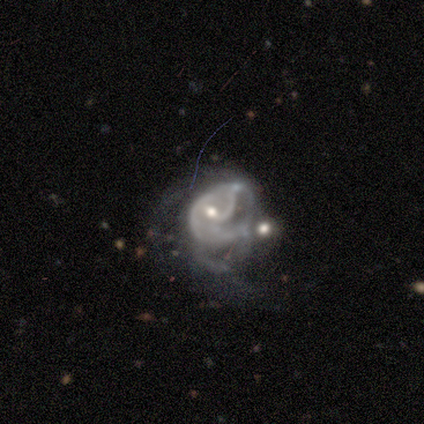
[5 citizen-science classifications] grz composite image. It shows a featured or disk galaxy (100%) with no bar (80%), tight (33%, tied with medium and loose) spiral arms (60%) and a moderate central bulge (60%). Merging: merger (40%).